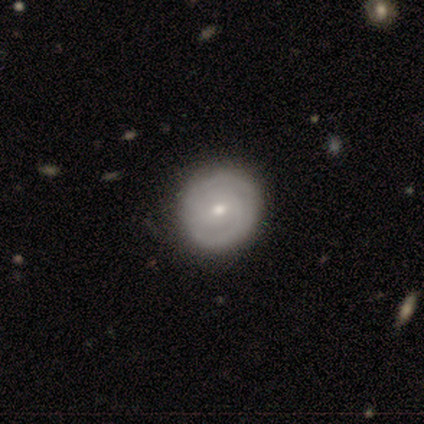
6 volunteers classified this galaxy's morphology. Smooth or featured? featured or disk (67%)
Edge-on disk? no (100%)
Bar? weak (50%, tied with no)
Spiral arms? yes (75%)
Spiral winding? tight (100%)
Spiral arm count? 2 (100%)
Bulge size? small (75%)
Merging? none (80%)